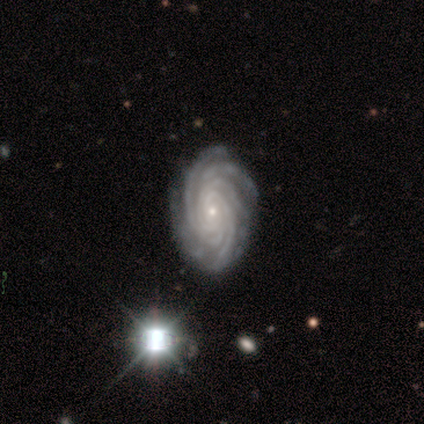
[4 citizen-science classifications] Morphology: type=featured or disk (100%); edge-on=no (100%); bar=no (75%); spiral arms=yes (100%); winding=tight (75%); arm count=more than 4 (75%); bulge=small (75%); merging=none (75%).